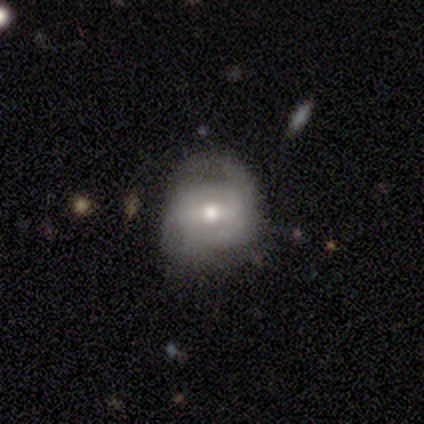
Smooth or featured?
  - featured or disk: 80% *
  - star or artifact: 20%
  - smooth: 0%
Edge-on disk?
  - yes: 50% * (tied)
  - no: 50% * (tied)
Edge-on bulge?
  - rounded: 100% *
  - boxy: 0%
  - none: 0%
Merging?
  - none: 75% *
  - minor disturbance: 25%
  - major disturbance: 0%
  - merger: 0%